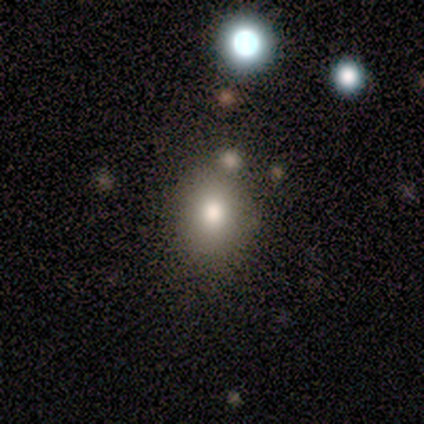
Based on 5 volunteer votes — smooth_or_featured: smooth (p=0.60) [alt: star or artifact p=0.40]
how_rounded: round (p=0.67) [alt: in between p=0.33]
merging: none (p=0.67) [alt: minor disturbance p=0.33]